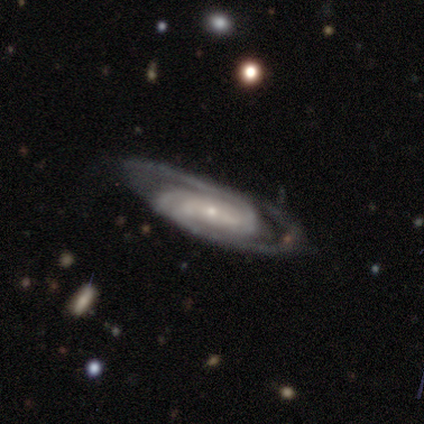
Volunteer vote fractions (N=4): Smooth or featured: featured or disk — 100%
Edge-on disk: no — 100%
Bar: no — 50% (strong — 25%)
Spiral arms: yes — 100%
Spiral winding: tight — 50% (tied with medium — 50%)
Spiral arm count: 2 — 75% (3 — 25%)
Bulge size: small — 75% (dominant — 25%)
Merging: none — 100%